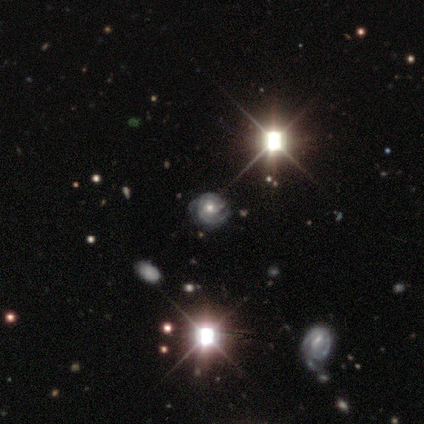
This is likely a featured or disk galaxy (60%). It is clearly not viewed edge-on (100%). Bar: clearly no (100%). Spiral arm pattern: clearly yes (100%). Spiral arm count: clearly can't tell (100%). Spiral winding: clearly tight (100%). Central bulge: clearly moderate (100%). Merging: likely minor disturbance (67%).